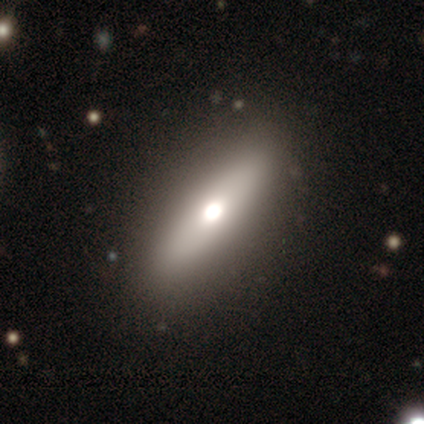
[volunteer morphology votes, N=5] A smooth galaxy with no disk features (80%) that is in between round and cigar-shaped (50%, tied with cigar-shaped). Merging: none (100%).